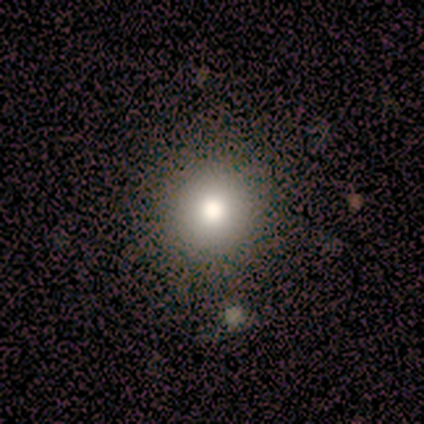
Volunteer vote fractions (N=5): smooth_or_featured: smooth (p=0.40) [tied with: star or artifact p=0.40]
how_rounded: round (p=0.50) [tied with: in between p=0.50]
merging: none (p=1.00)